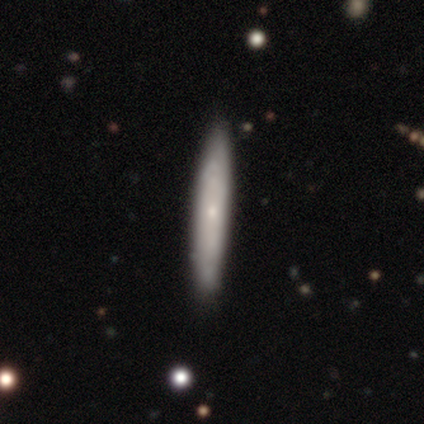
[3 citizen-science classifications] smooth_or_featured: featured or disk (p=0.67) [alt: smooth p=0.33]
disk_edge_on: yes (p=1.00)
edge_on_bulge: none (p=0.50) [tied with: rounded p=0.50]
merging: none (p=0.67) [alt: minor disturbance p=0.33]